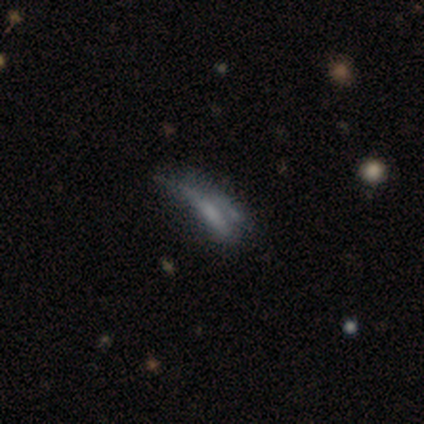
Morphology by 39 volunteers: smooth-or-featured: featured or disk: 41% | smooth: 38% | star or artifact: 21%
  disk-edge-on: no: 62% | yes: 38%
    bar: no: 60% | strong: 30% | weak: 10%
    has-spiral-arms: no: 80% | yes: 20%
    bulge-size: none: 90% | small: 10% | dominant: 0% | large: 0% | moderate: 0%
  merging: none: 42% | major disturbance: 29% | minor disturbance: 19% | merger: 10%